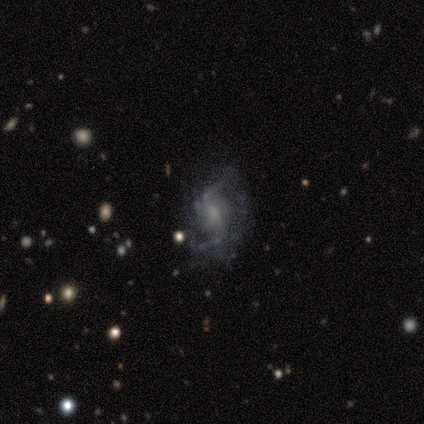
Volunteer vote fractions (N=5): Smooth or featured? featured or disk (80%)
Edge-on disk? no (100%)
Bar? no (75%)
Spiral arms? yes (100%)
Spiral winding? medium (75%)
Spiral arm count? can't tell (50%)
Bulge size? small (100%)
Merging? none (60%)